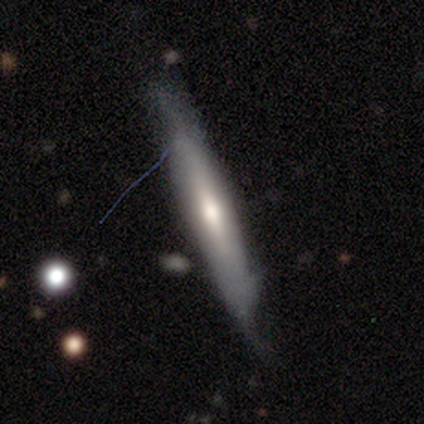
This appears to be a smooth galaxy with no disk features (60%) that is cigar-shaped (100%). Merging: none (80%).